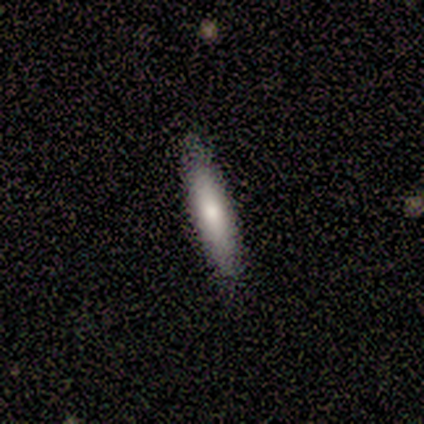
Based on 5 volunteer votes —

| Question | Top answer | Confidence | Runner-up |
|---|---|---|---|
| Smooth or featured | smooth | 80% | featured or disk (20%) |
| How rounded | cigar-shaped | 100% | — |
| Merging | none | 80% | minor disturbance (20%) |